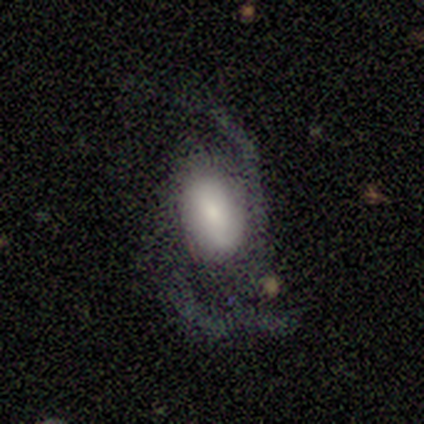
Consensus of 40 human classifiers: Overall: featured or disk (57%; smooth 32%). Edge-on disk: no (96%). Bar: no (50%; weak 32%). Spiral arms: yes (100%). Spiral arm count: 2 (82%). Spiral winding: loose (73%). Bulge size: small (45%; large 23%). Merging: none (39%; major disturbance 33%).